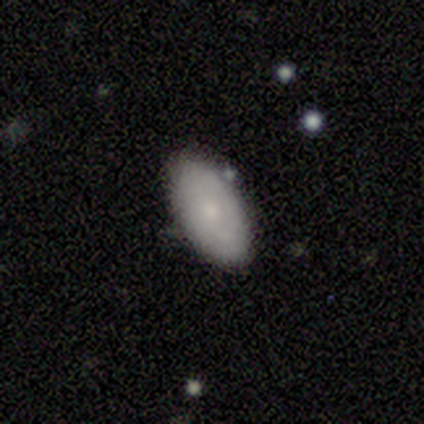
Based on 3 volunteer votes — A smooth galaxy with no disk features (67%) that is in between round and cigar-shaped (100%). Merging: none (50%, tied with minor disturbance).